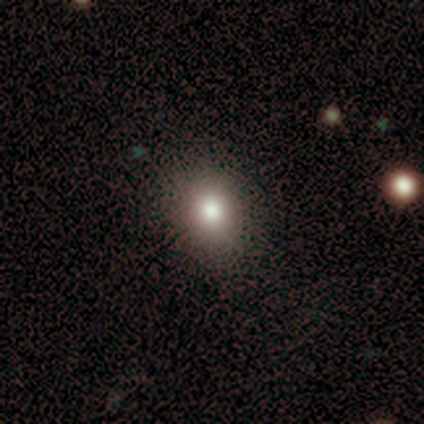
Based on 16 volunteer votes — A smooth galaxy with no disk features (94%) that is in between round and cigar-shaped (60%).

Vote fractions:
- Smooth or featured? smooth: 94% / featured or disk: 6% / star or artifact: 0%
- How rounded? in between: 60% / round: 40% / cigar-shaped: 0%
- Merging? none: 100% / minor disturbance: 0% / major disturbance: 0% / merger: 0%